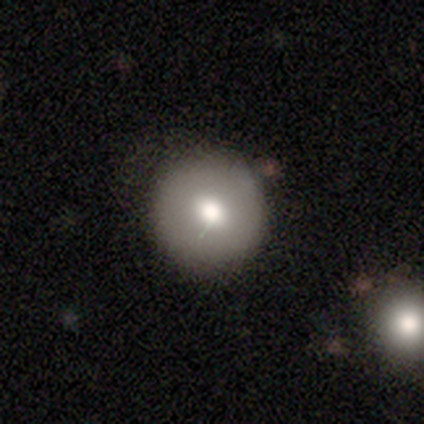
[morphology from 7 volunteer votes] A smooth galaxy with no disk features (71%) that is round (100%).

Vote fractions:
- Smooth or featured? smooth: 71% / featured or disk: 29% / star or artifact: 0%
- How rounded? round: 100% / in between: 0% / cigar-shaped: 0%
- Merging? none: 100% / minor disturbance: 0% / major disturbance: 0% / merger: 0%